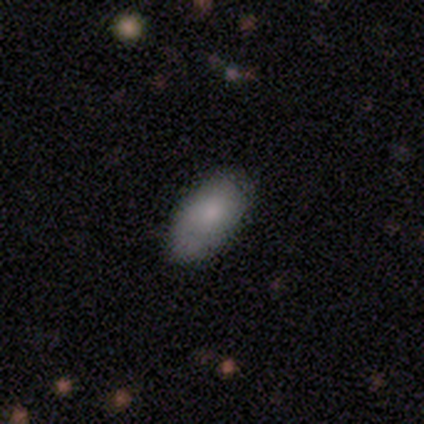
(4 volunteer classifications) Smooth or featured?
  - smooth: 75% *
  - featured or disk: 25%
  - star or artifact: 0%
How rounded?
  - in between: 100% *
  - round: 0%
  - cigar-shaped: 0%
Merging?
  - none: 100% *
  - minor disturbance: 0%
  - major disturbance: 0%
  - merger: 0%